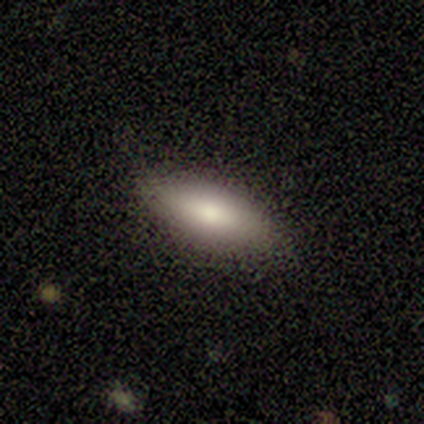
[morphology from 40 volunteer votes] This appears to be a smooth galaxy with no disk features (65%) that is in between round and cigar-shaped (65%). Merging: none (89%).